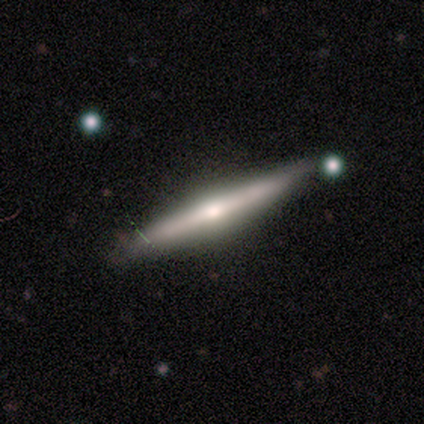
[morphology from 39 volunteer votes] This is likely a featured or disk galaxy (72%). It is clearly viewed edge-on (96%). Edge-on bulge: clearly rounded (89%). Merging: clearly none (86%).